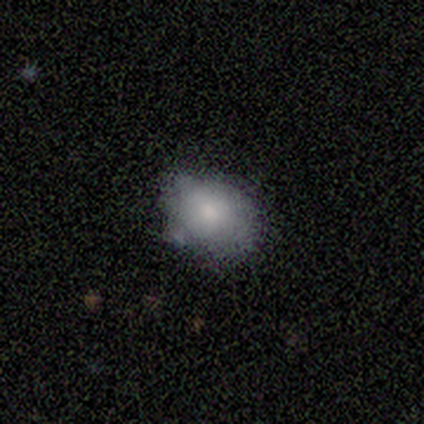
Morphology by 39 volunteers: Smooth or featured?
  - smooth: 74% *
  - featured or disk: 21%
  - star or artifact: 5%
How rounded?
  - in between: 62% *
  - round: 38%
  - cigar-shaped: 0%
Merging?
  - none: 65% *
  - minor disturbance: 27%
  - merger: 5%
  - major disturbance: 3%